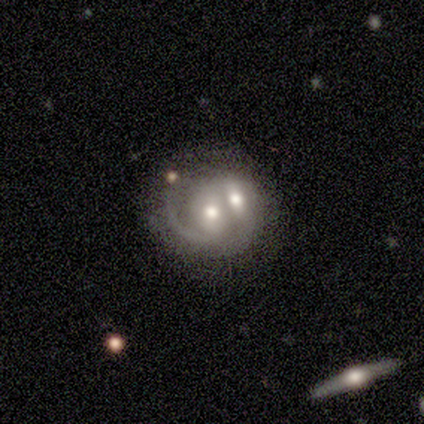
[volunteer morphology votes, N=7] A featured or disk galaxy (86%) with a weak bar (50%, tied with no), 1 (50%, tied with 2) medium (50%) spiral arms (67%) and a moderate central bulge (83%).

Vote fractions:
- Smooth or featured? featured or disk: 86% / smooth: 14% / star or artifact: 0%
- Edge-on disk? no: 100% / yes: 0%
- Bar? weak: 50% (tied) / no: 50% (tied) / strong: 0%
- Spiral arms? yes: 67% / no: 33%
- Spiral winding? medium: 50% / tight: 25% / loose: 25%
- Spiral arm count? 1: 50% (tied) / 2: 50% (tied) / 3: 0% / 4: 0% / more than 4: 0% / can't tell: 0%
- Bulge size? moderate: 83% / small: 17% / dominant: 0% / large: 0% / none: 0%
- Merging? merger: 86% / major disturbance: 14% / none: 0% / minor disturbance: 0%